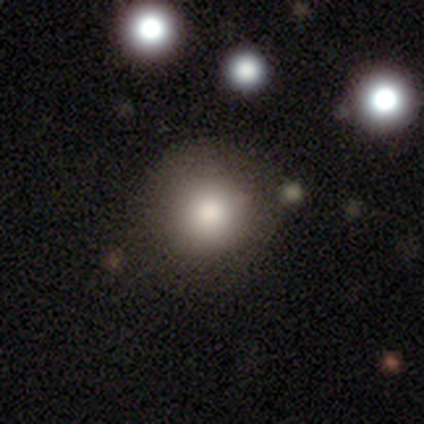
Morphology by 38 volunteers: Volunteers were most divided on "smooth or featured": smooth: 76%, star or artifact: 21%, featured or disk: 3%. More confident: how rounded — round (97%); merging — none (80%).